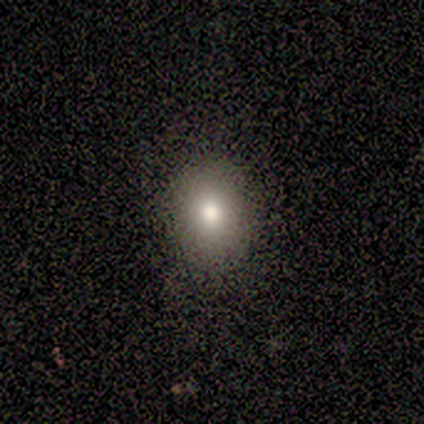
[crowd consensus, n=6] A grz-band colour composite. It shows a smooth galaxy with no disk features (67%) that is round (50%, tied with in between). Merging: none (100%).